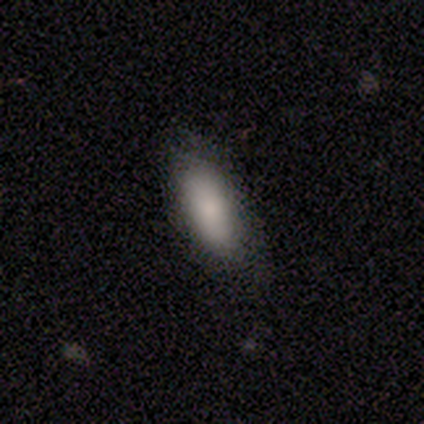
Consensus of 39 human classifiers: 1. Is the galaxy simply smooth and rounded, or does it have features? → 90% smooth, 8% star or artifact, 3% featured or disk.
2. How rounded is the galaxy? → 83% in between, 17% cigar-shaped, 0% round.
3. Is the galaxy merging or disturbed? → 61% none, 14% minor disturbance, 3% major disturbance, 0% merger.